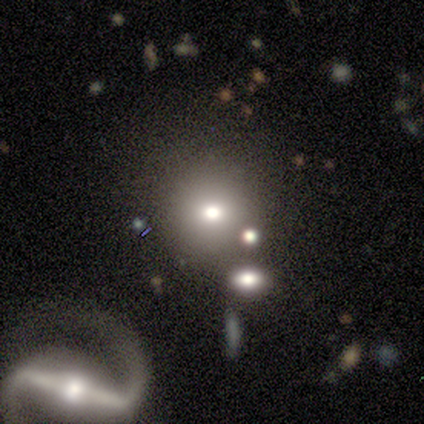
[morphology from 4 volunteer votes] Volunteers were most divided on "smooth or featured" (2-way tie): smooth: 50%, featured or disk: 50%, star or artifact: 0%. More confident: how rounded — round (100%); merging — merger (75%).